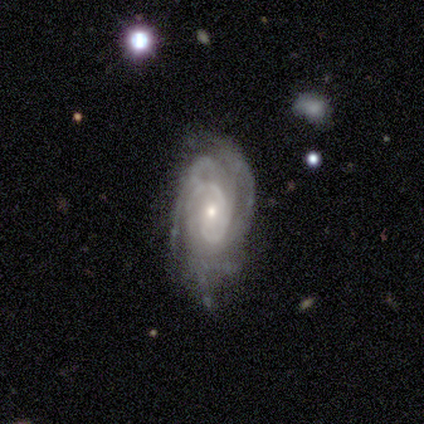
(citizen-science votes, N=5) smooth_or_featured: featured or disk (p=0.80) [alt: star or artifact p=0.20]
disk_edge_on: no (p=1.00)
bar: no (p=0.75) [alt: weak p=0.25]
has_spiral_arms: yes (p=1.00)
spiral_winding: tight (p=1.00)
spiral_arm_count: 2 (p=0.25) [tied with: 3 p=0.25, 4 p=0.25, can't tell p=0.25]
bulge_size: moderate (p=0.50) [tied with: small p=0.50]
merging: none (p=0.75) [alt: major disturbance p=0.25]